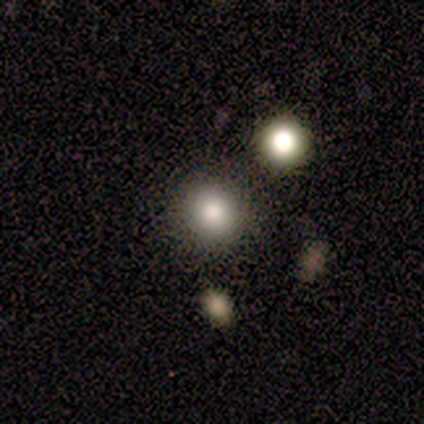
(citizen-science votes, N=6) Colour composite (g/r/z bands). It shows a smooth galaxy with no disk features (83%) that is round (80%). Merging: none (80%).